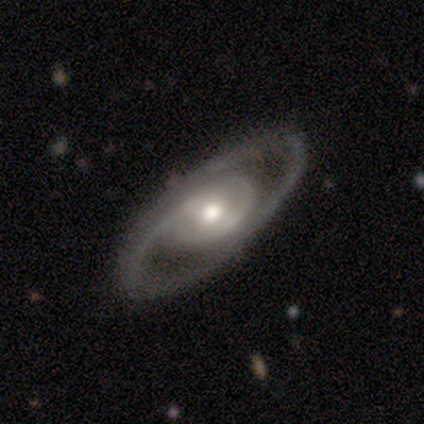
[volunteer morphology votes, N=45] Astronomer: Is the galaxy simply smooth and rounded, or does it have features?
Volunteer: featured or disk — 87%.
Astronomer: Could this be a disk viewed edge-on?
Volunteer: no — 95%.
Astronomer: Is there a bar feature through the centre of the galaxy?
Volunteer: no — 68%.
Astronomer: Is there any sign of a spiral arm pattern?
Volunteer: yes — 59% (runner-up: no, 41%).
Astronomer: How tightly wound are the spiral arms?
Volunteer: tight — 59% (runner-up: medium, 36%).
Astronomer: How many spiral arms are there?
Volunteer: can't tell — 36% (runner-up: 2, 32%).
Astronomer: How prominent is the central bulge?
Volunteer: moderate — 70%.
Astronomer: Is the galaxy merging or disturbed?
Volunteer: none — 98%.